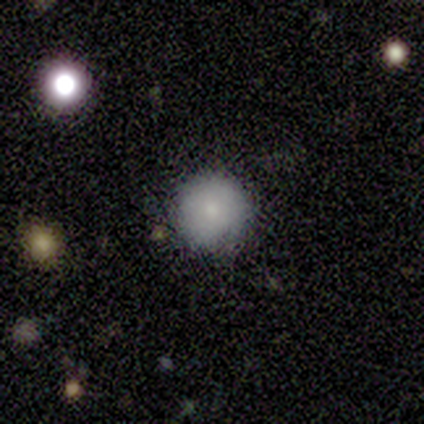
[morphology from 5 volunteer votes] This appears to be a smooth galaxy with no disk features (60%) that is round (100%). Merging: none (67%).